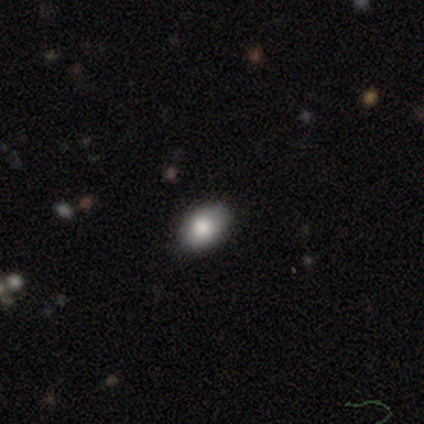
Smooth or featured? smooth (86%)
How rounded? in between (83%)
Merging? none (83%)